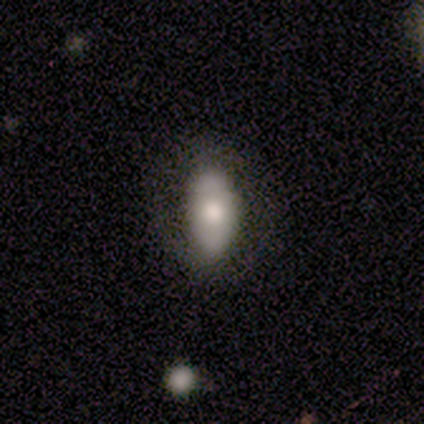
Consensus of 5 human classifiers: A smooth galaxy with no disk features (100%) that is in between round and cigar-shaped (80%). Merging: none (60%).